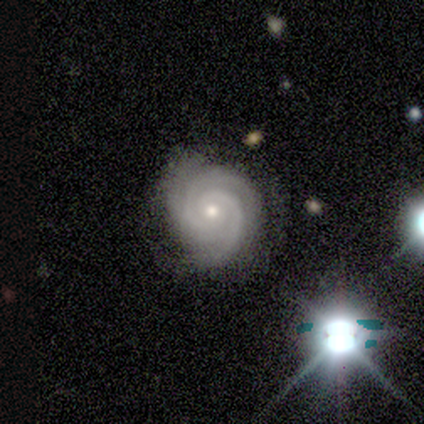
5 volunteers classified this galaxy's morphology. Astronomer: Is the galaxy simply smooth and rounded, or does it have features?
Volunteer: featured or disk — 80%.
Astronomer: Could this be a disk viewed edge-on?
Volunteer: no — 75%.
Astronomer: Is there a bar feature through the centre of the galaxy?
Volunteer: no — 67%.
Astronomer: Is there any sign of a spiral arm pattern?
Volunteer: yes — 100%.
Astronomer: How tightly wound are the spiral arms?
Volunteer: tight — 100%.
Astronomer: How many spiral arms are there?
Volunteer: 3 — 67%.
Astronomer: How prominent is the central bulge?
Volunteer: moderate — 67%.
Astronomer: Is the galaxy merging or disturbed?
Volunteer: none — 75%.